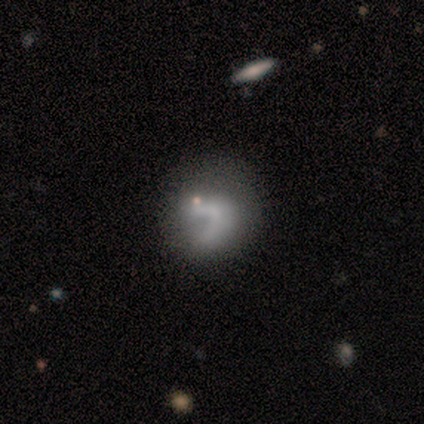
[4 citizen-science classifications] Smooth or featured? smooth (75%)
How rounded? round (67%)
Merging? none (100%)